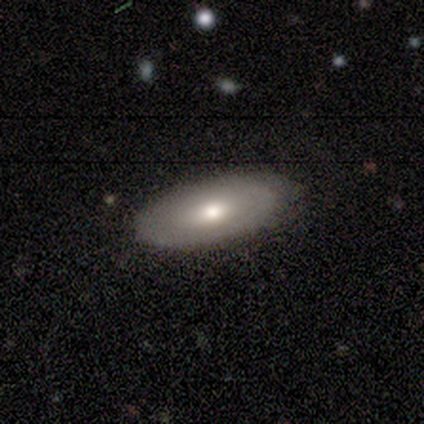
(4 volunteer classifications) smooth 50% (tied), featured or disk 50% (tied), star or artifact 0%. Down the decision tree: how rounded — in between (100%); merging — none (75%).